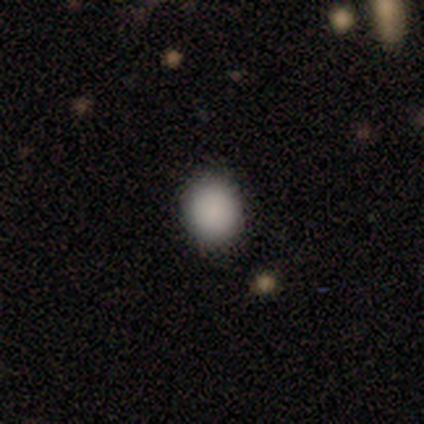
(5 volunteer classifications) This appears to be a smooth galaxy with no disk features (100%) that is in between round and cigar-shaped (80%). Merging: none (80%).